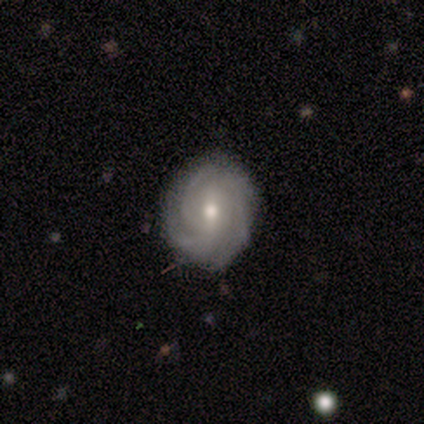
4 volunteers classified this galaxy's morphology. Smooth or featured? featured or disk (75%)
Edge-on disk? no (100%)
Bar? weak (67%)
Spiral arms? yes (100%)
Spiral winding? tight (67%)
Spiral arm count? 3 (33%, tied with 4 and can't tell)
Bulge size? moderate (100%)
Merging? none (50%, tied with minor disturbance)